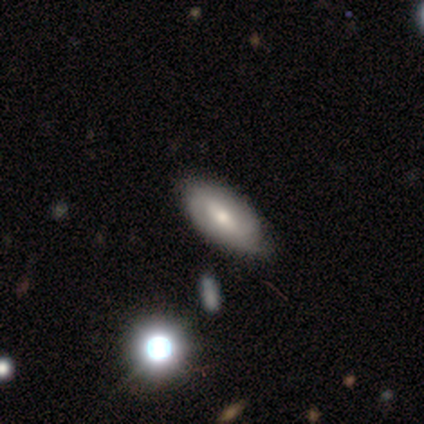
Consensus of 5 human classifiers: Smooth or featured: smooth — 40% (tied with featured or disk — 40%)
How rounded: in between — 100%
Merging: none — 100%